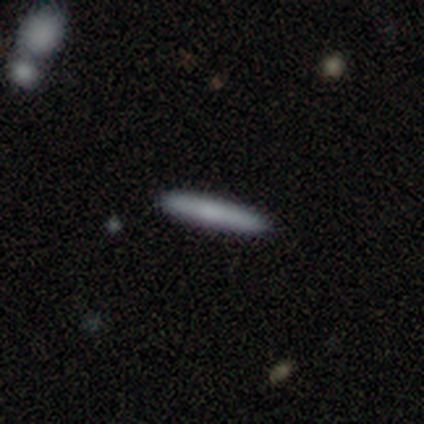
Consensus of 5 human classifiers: Smooth or featured? smooth (100%)
How rounded? cigar-shaped (100%)
Merging? none (100%)